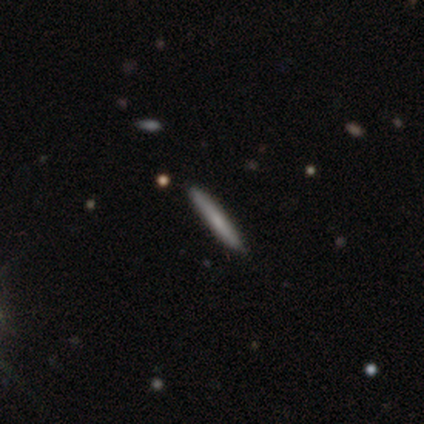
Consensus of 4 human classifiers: Smooth or featured? smooth (75%)
How rounded? cigar-shaped (100%)
Merging? none (50%, tied with minor disturbance)